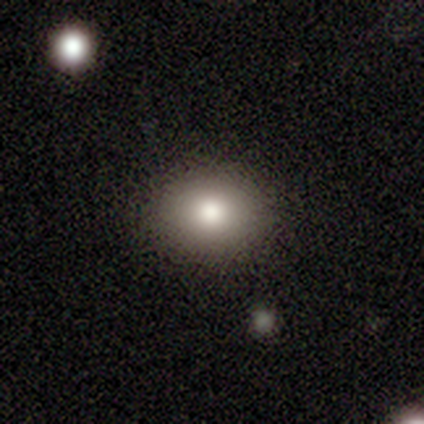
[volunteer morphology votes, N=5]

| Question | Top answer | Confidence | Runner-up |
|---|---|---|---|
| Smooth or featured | smooth | 100% | — |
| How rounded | in between | 60% | round (40%) |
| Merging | none | 60% | minor disturbance (40%) |